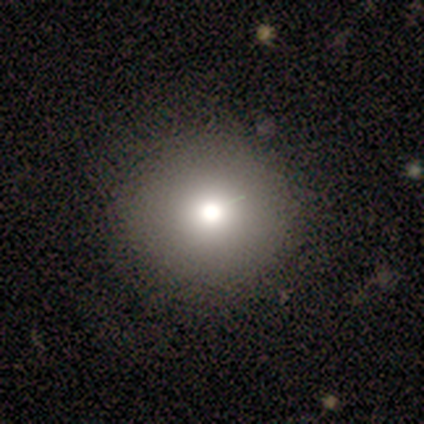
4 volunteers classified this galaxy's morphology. This is likely a smooth galaxy (75%). How rounded: clearly round (100%). Merging: clearly none (100%).